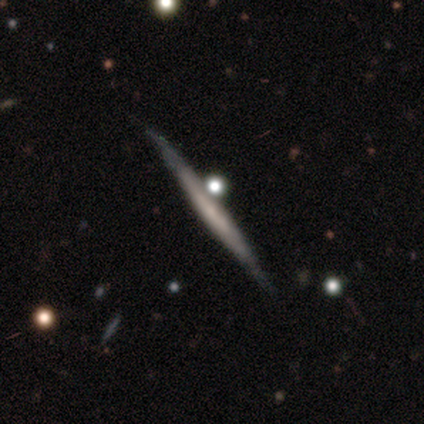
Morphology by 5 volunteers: This is clearly a featured or disk galaxy (80%). It is clearly viewed edge-on (100%). Edge-on bulge: clearly none (100%). Merging: clearly none (80%).